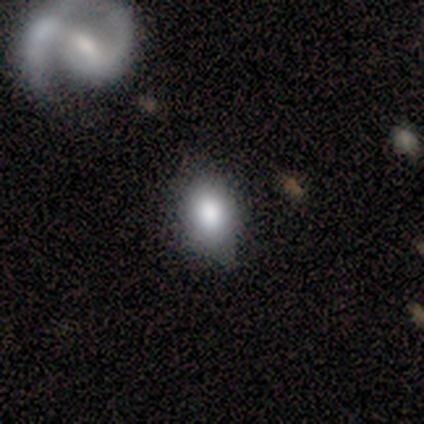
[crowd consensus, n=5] Morphology: type=smooth (80%); roundness=in between (75%); merging=none (75%).